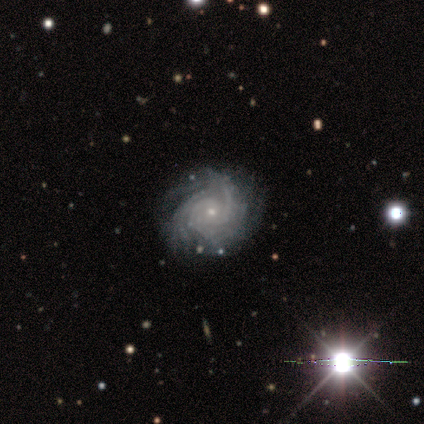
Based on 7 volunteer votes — Smooth or featured? 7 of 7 (100%) said featured or disk. Edge-on disk? 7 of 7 (100%) said no. Bar? 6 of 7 (86%) said no. Spiral arms? 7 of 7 (100%) said yes. Spiral winding? 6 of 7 (86%) said tight. Spiral arm count? 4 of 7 (57%) said can't tell. Bulge size? 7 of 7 (100%) said small. Merging? 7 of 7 (100%) said none.